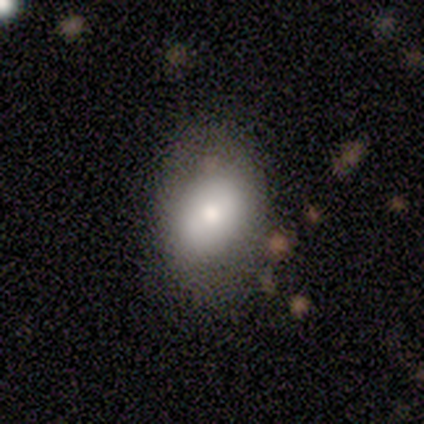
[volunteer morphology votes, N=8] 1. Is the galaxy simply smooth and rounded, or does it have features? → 100% smooth, 0% featured or disk, 0% star or artifact.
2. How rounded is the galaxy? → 88% in between, 12% round, 0% cigar-shaped.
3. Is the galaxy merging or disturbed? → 88% none, 12% minor disturbance, 0% major disturbance, 0% merger.